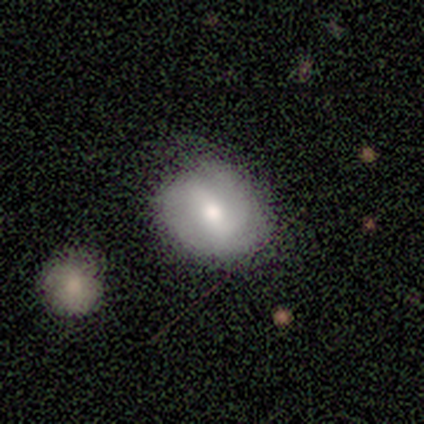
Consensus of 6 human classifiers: A smooth galaxy with no disk features (83%) that is round (80%).

Vote fractions:
- Smooth or featured? smooth: 83% / featured or disk: 17% / star or artifact: 0%
- How rounded? round: 80% / in between: 20% / cigar-shaped: 0%
- Merging? none: 100% / minor disturbance: 0% / major disturbance: 0% / merger: 0%